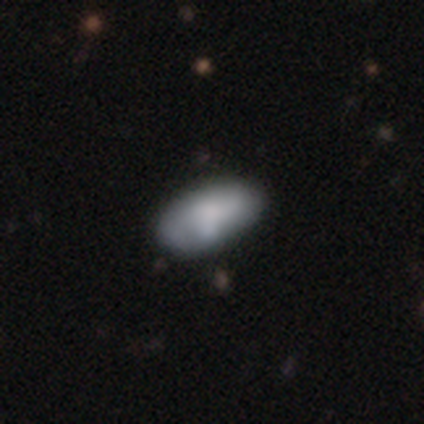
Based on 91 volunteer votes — Morphology: type=smooth (65%); roundness=in between (98%); merging=none (69%).